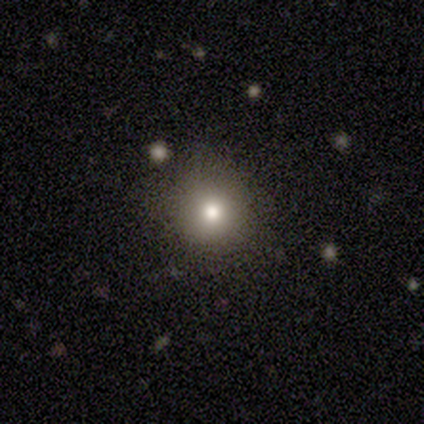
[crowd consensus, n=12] Morphology: type=smooth (75%); roundness=round (100%); merging=none (100%).